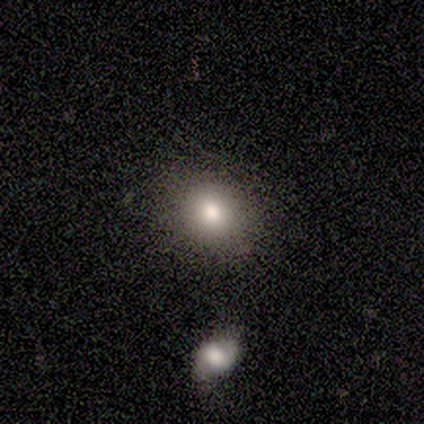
Overall: smooth (80%). How rounded: round (50%, tied with in between). Merging: none (80%).